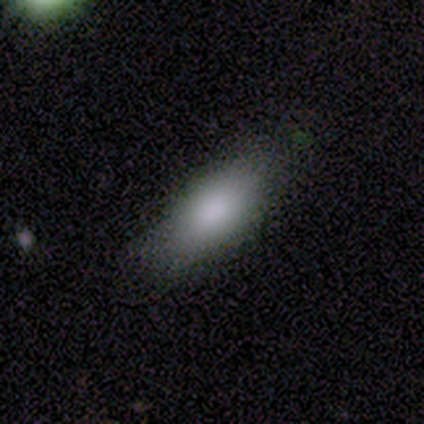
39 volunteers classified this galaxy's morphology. smooth-or-featured: smooth: 79% | featured or disk: 13% | star or artifact: 8%
  how-rounded: in between: 84% | cigar-shaped: 10% | round: 6%
  merging: none: 83% | minor disturbance: 11% | major disturbance: 6% | merger: 0%